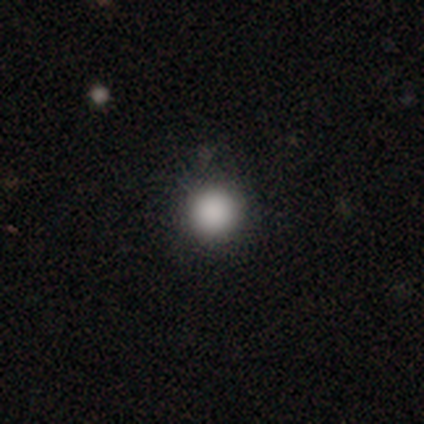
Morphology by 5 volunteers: smooth-or-featured: smooth: 100% | featured or disk: 0% | star or artifact: 0%
  how-rounded: round: 100% | in between: 0% | cigar-shaped: 0%
  merging: none: 100% | minor disturbance: 0% | major disturbance: 0% | merger: 0%